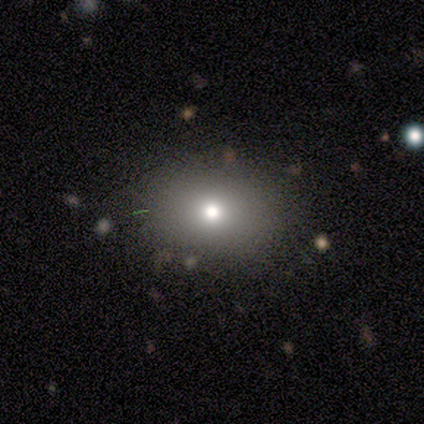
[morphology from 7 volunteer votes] Smooth or featured? 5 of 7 (71%) said smooth. How rounded? 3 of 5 (60%) said in between. Merging? 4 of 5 (80%) said none.